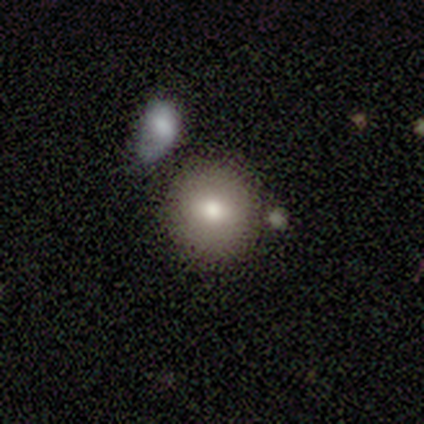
smooth_or_featured: smooth (p=1.00)
how_rounded: round (p=1.00)
merging: none (p=1.00)